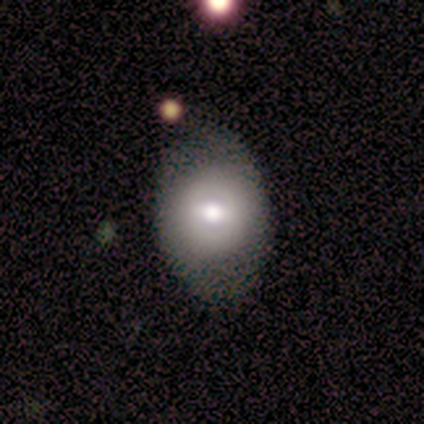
smooth 60%, featured or disk 20%, star or artifact 20%. Down the decision tree: how rounded — round (67%); merging — none (50%, tied with minor disturbance).